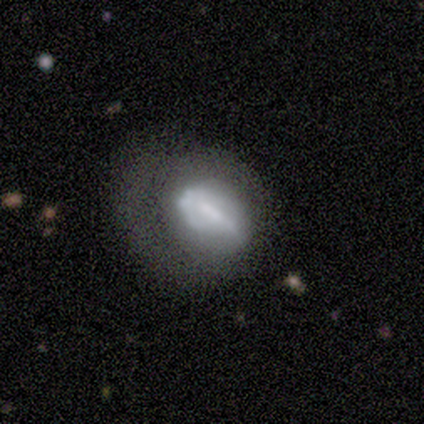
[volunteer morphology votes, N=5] Overall: featured or disk (40%, tied with star or artifact). Edge-on disk: no (100%). Bar: strong (50%, tied with no). Spiral arms: yes (100%). Spiral arm count: 1 (50%, tied with can't tell). Spiral winding: tight (50%, tied with medium). Bulge size: small (100%). Merging: major disturbance (67%; none 33%).